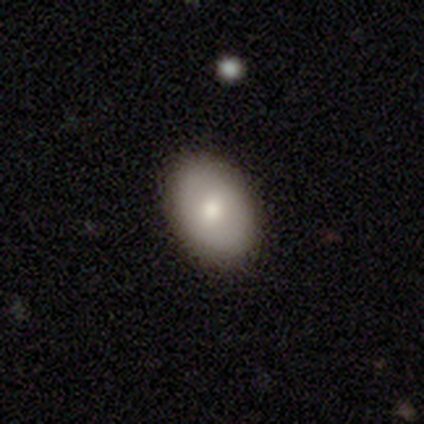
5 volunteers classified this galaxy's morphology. This is clearly a smooth galaxy (80%). How rounded: possibly round (50%, tied with in between). Merging: clearly none (80%).